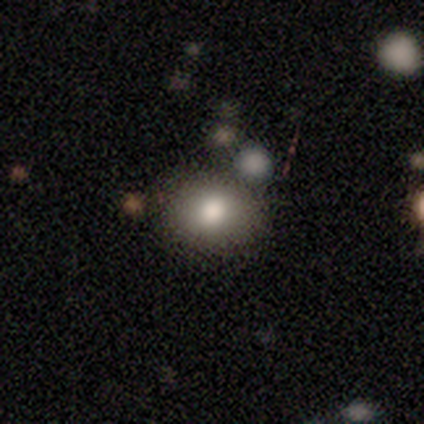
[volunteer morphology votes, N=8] This is clearly a smooth galaxy (88%). How rounded: likely round (71%). Merging: likely none (71%).